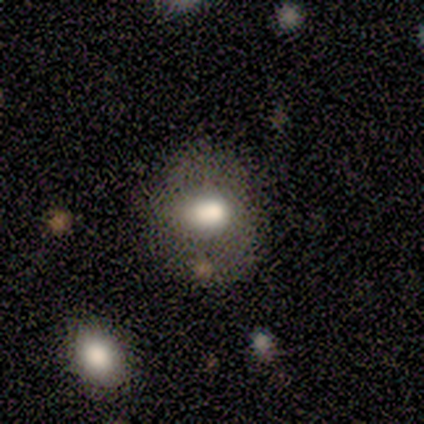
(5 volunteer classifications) This appears to be a smooth galaxy with no disk features (100%) that is round (80%). Merging: none (80%).